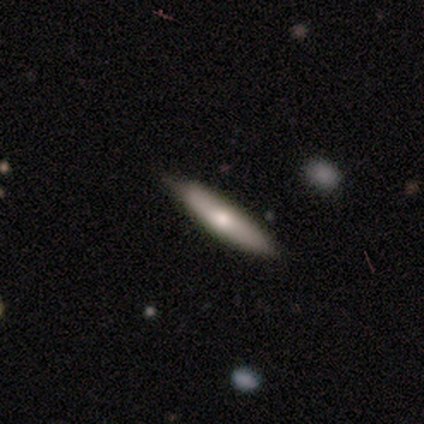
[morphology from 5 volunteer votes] Overall: smooth (60%; featured or disk 40%). How rounded: cigar-shaped (100%). Merging: none (100%).